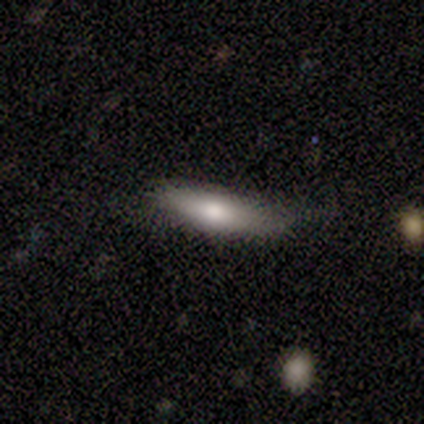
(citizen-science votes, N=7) A smooth galaxy with no disk features (71%) that is cigar-shaped (60%). Merging: none (57%).